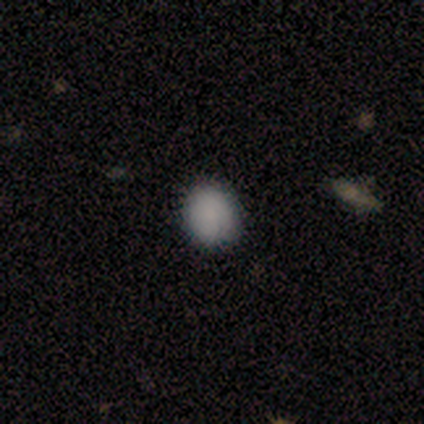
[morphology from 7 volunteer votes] Smooth or featured? 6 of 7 (86%) said smooth. How rounded? 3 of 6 (50%, tied with in between) said round. Merging? 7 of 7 (100%) said none.